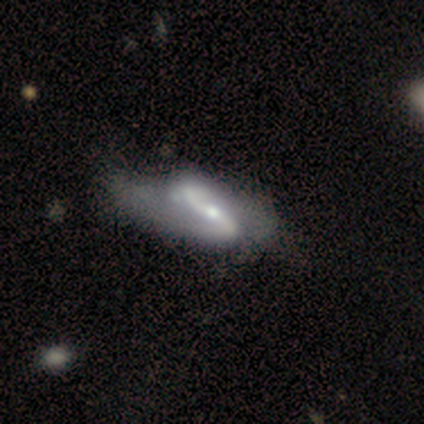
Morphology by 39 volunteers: smooth_or_featured: featured or disk (p=1.00)
disk_edge_on: no (p=0.90) [alt: yes p=0.10]
bar: strong (p=0.63) [alt: no p=0.23]
has_spiral_arms: yes (p=0.94) [alt: no p=0.06]
spiral_winding: loose (p=0.79) [alt: medium p=0.18]
spiral_arm_count: 2 (p=0.97) [alt: 1 p=0.03]
bulge_size: moderate (p=0.54) [alt: small p=0.40]
merging: none (p=0.23) [tied with: minor disturbance p=0.23]